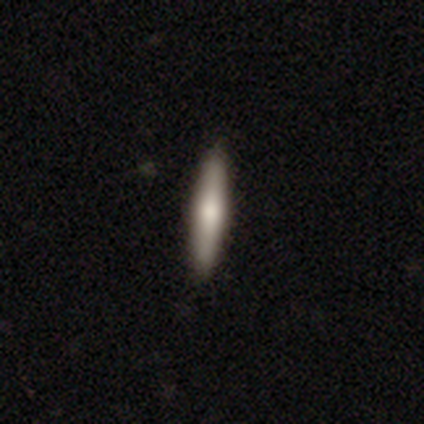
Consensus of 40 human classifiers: smooth-or-featured: smooth: 68% | featured or disk: 25% | star or artifact: 8%
  how-rounded: cigar-shaped: 100% | round: 0% | in between: 0%
  merging: none: 84% | minor disturbance: 16% | major disturbance: 0% | merger: 0%